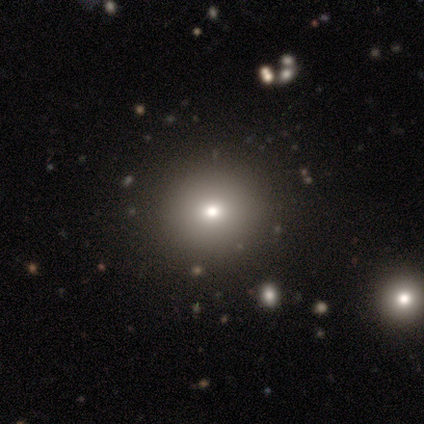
Smooth or featured: smooth — 86% (star or artifact — 14%)
How rounded: round — 100%
Merging: none — 100%